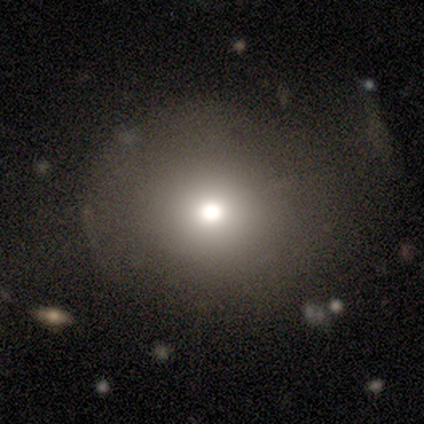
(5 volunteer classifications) This is clearly a smooth galaxy (80%). How rounded: clearly round (100%). Merging: likely none (75%).